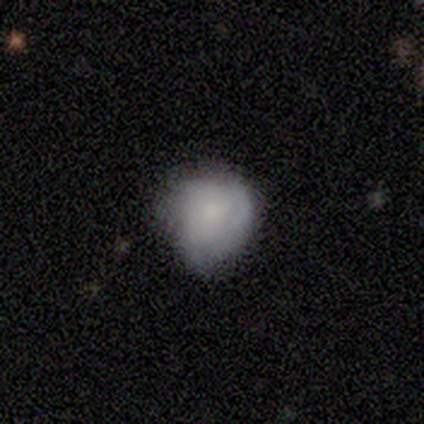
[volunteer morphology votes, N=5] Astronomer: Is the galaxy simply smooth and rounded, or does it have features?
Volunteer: smooth — 60% (runner-up: featured or disk, 40%).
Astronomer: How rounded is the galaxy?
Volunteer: round — 100%.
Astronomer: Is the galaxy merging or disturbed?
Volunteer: minor disturbance — 60% (runner-up: none, 40%).